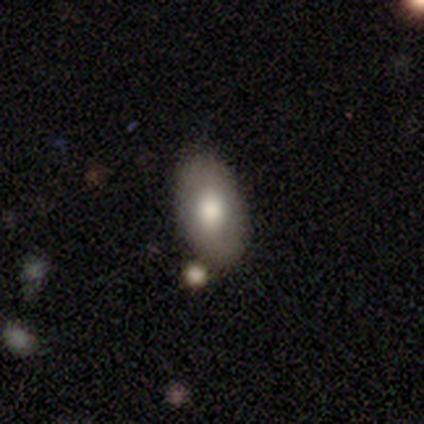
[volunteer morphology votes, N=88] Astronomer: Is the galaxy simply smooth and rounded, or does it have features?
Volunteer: smooth — 70%.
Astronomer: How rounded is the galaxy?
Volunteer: in between — 94%.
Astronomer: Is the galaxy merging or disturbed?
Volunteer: none — 72%.